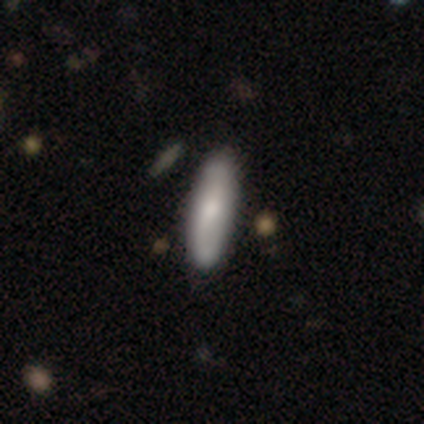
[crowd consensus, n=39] This is likely a smooth galaxy (64%). How rounded: likely cigar-shaped (68%). Merging: possibly none (53%).